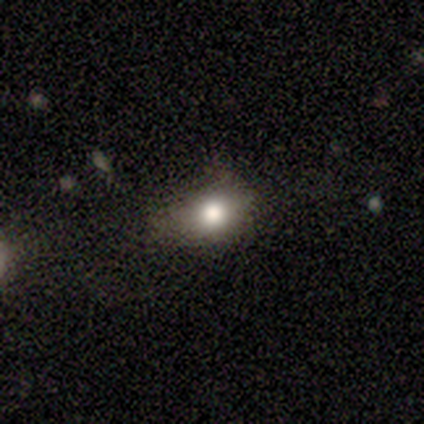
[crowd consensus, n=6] Morphology: type=featured or disk (100%); edge-on=no (100%); bar=no (100%); spiral arms=no (100%); bulge=large (50%); merging=none (67%).